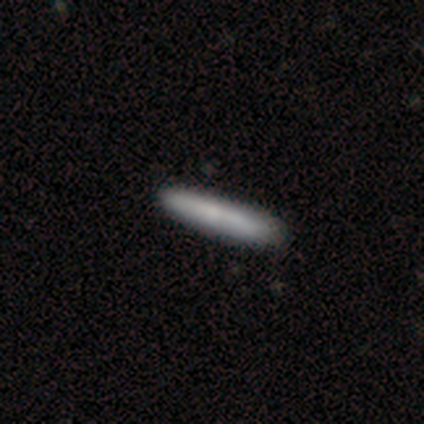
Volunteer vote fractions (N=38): smooth 76%, featured or disk 24%, star or artifact 0%. Down the decision tree: how rounded — cigar-shaped (100%); merging — none (79%).